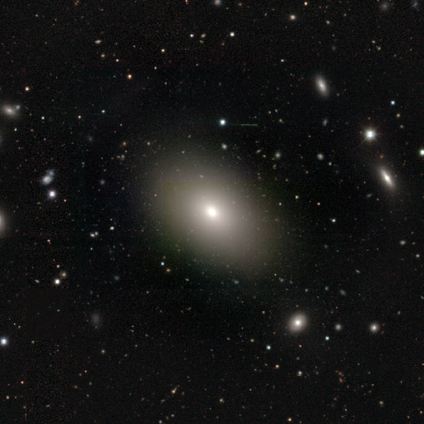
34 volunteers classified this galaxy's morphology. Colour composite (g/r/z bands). It shows a smooth galaxy with no disk features (68%) that is in between round and cigar-shaped (87%). Merging: none (93%).